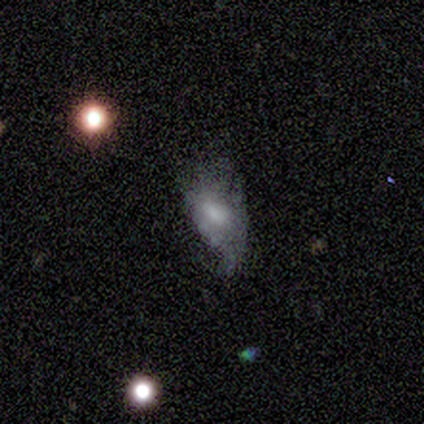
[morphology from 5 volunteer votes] This appears to be a smooth galaxy with no disk features (60%) that is in between round and cigar-shaped (67%). Merging: major disturbance (80%).